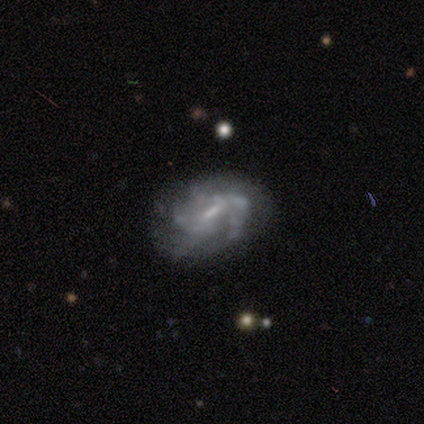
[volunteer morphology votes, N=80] This appears to be a featured or disk galaxy (85%) with a weak bar (69%), medium (49%) spiral arms (73%) and a small central bulge (51%). Merging: none (36%).